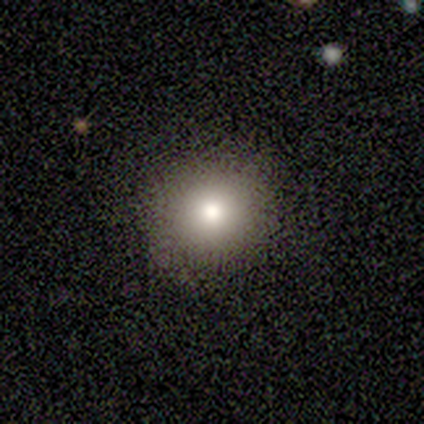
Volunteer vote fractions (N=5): smooth_or_featured: smooth (p=0.80) [alt: featured or disk p=0.20]
how_rounded: round (p=1.00)
merging: none (p=0.60) [alt: minor disturbance p=0.40]